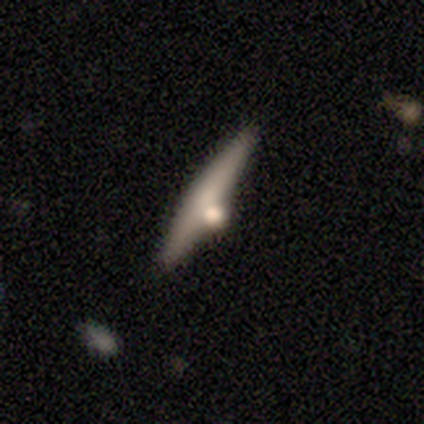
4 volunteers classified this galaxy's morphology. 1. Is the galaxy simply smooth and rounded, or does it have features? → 50% smooth (tied), 50% featured or disk (tied), 0% star or artifact.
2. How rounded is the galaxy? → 100% cigar-shaped, 0% round, 0% in between.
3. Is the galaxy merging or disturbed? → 50% none (tied), 50% merger (tied), 0% minor disturbance, 0% major disturbance.